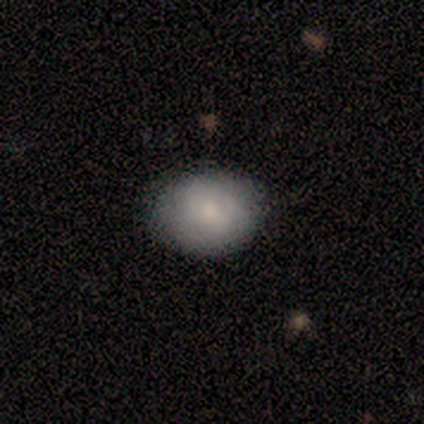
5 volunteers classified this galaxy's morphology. A smooth galaxy with no disk features (100%) that is in between round and cigar-shaped (80%). Merging: none (60%).